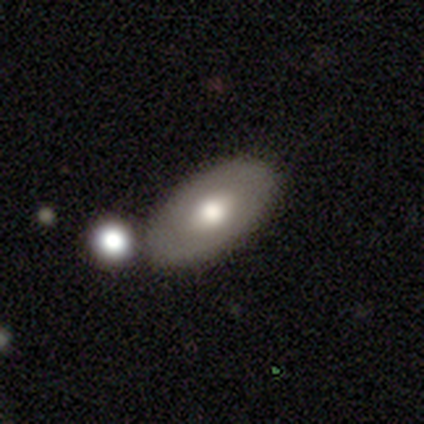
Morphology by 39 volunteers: This is possibly a smooth galaxy (56%). How rounded: clearly in between (91%). Merging: likely none (66%).